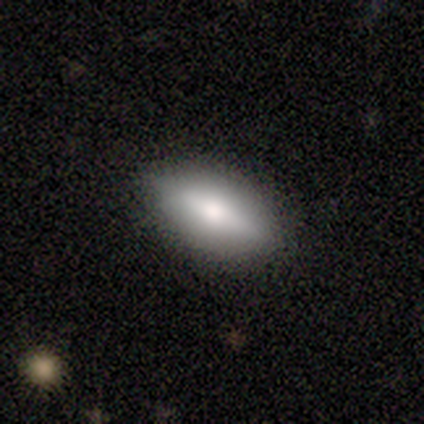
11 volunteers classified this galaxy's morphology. This is clearly a smooth galaxy (91%). How rounded: clearly in between (100%). Merging: clearly none (100%).